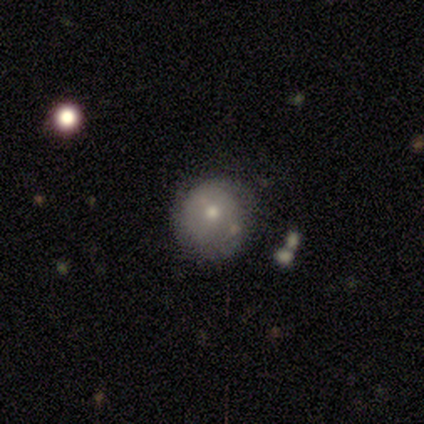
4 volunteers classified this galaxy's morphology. A featured or disk galaxy (75%) with no bar (100%), no spiral arms (67%) and a moderate central bulge (67%).

Vote fractions:
- Smooth or featured? featured or disk: 75% / smooth: 25% / star or artifact: 0%
- Edge-on disk? no: 100% / yes: 0%
- Bar? no: 100% / strong: 0% / weak: 0%
- Spiral arms? no: 67% / yes: 33%
- Bulge size? moderate: 67% / small: 33% / dominant: 0% / large: 0% / none: 0%
- Merging? none: 50% (tied) / minor disturbance: 50% (tied) / major disturbance: 0% / merger: 0%